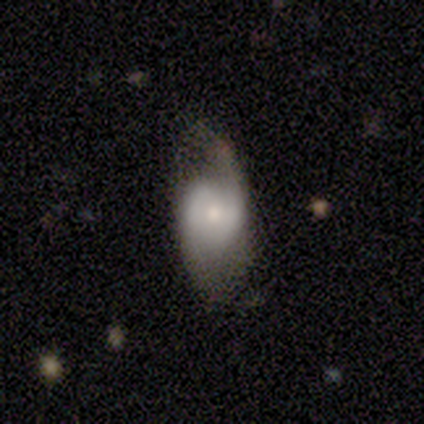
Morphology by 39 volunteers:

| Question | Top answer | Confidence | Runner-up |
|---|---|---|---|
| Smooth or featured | featured or disk | 56% | smooth (36%) |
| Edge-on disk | no | 95% | yes (5%) |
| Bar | no | 57% | weak (38%) |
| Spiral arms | yes | 76% | no (24%) |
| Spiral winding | medium | 44% | loose (38%) |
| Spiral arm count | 2 | 62% | can't tell (31%) |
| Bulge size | moderate | 38% | small (29%) |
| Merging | none | 44% | minor disturbance (33%) |